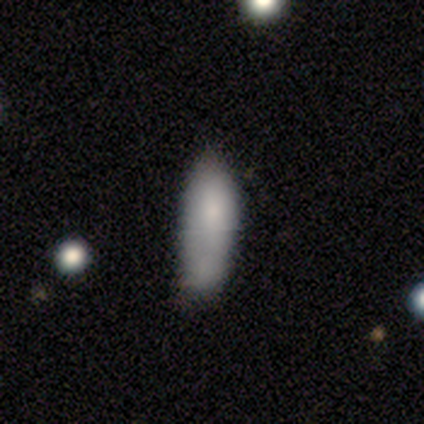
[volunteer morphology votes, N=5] This appears to be a smooth galaxy with no disk features (80%) that is cigar-shaped (75%). Merging: none (60%).